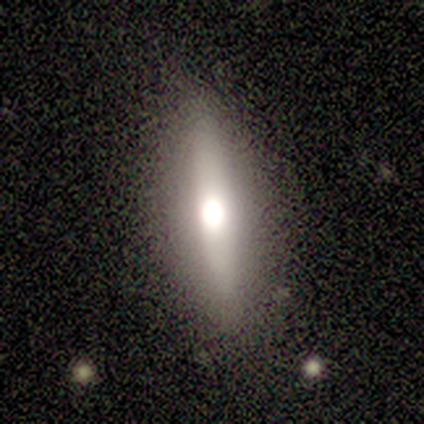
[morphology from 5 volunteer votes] Overall: featured or disk (80%). Edge-on disk: yes (75%). Edge-on bulge: rounded (100%). Merging: none (100%).